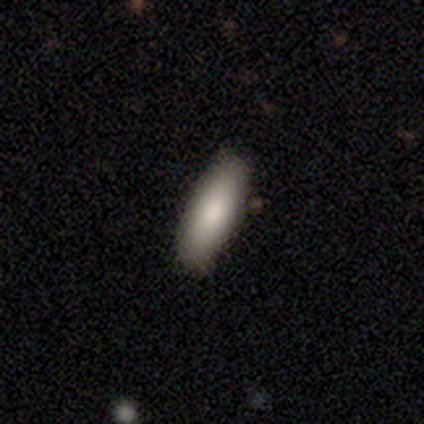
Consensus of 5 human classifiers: This appears to be a smooth galaxy with no disk features (100%) that is cigar-shaped (60%). Merging: none (100%).